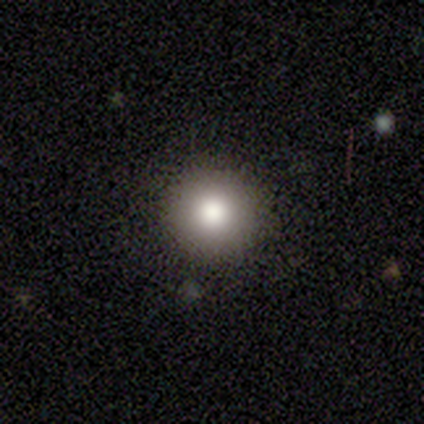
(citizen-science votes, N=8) A smooth galaxy with no disk features (88%) that is round (86%). Merging: none (57%).